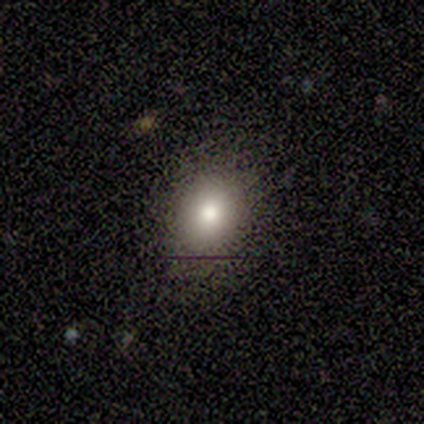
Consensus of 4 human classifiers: smooth_or_featured: smooth (p=0.50) [alt: featured or disk p=0.25]
how_rounded: round (p=1.00)
merging: none (p=1.00)